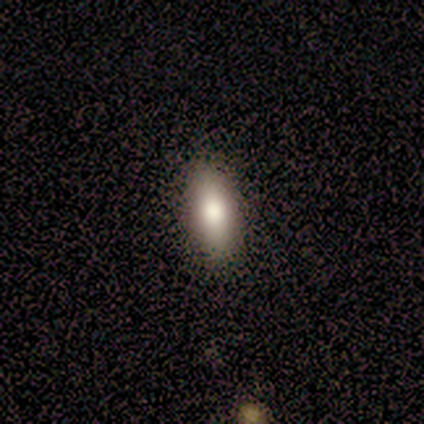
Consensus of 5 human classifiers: Volunteers were most divided on "smooth or featured": smooth: 60%, featured or disk: 40%, star or artifact: 0%. More confident: how rounded — in between (100%); merging — none (80%).